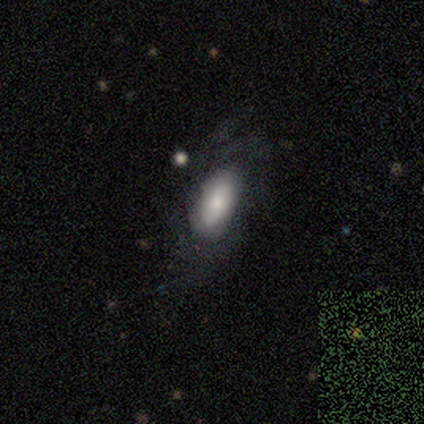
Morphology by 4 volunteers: Volunteers were most divided on "smooth or featured" (2-way tie): smooth: 50%, featured or disk: 50%, star or artifact: 0%. More confident: how rounded — in between (100%); merging — none (75%).